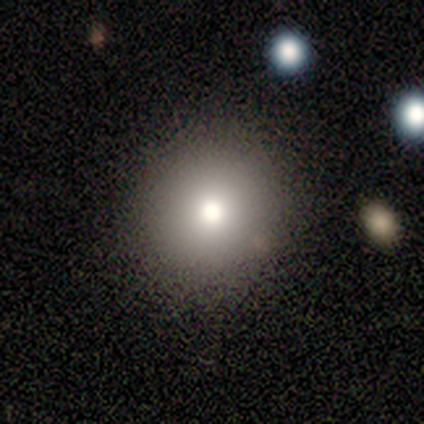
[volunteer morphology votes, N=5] type=smooth (60%); roundness=round (100%); merging=none (100%).